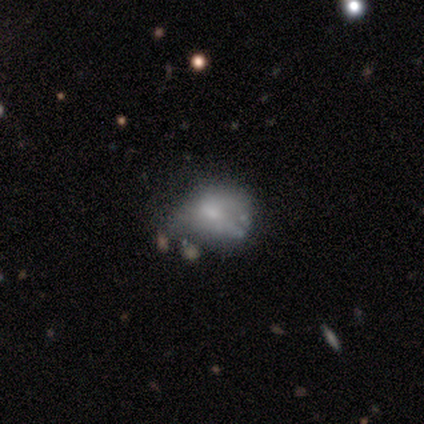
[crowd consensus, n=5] Morphology: type=smooth (40%, tied with featured or disk); roundness=round (100%); merging=minor disturbance (50%).